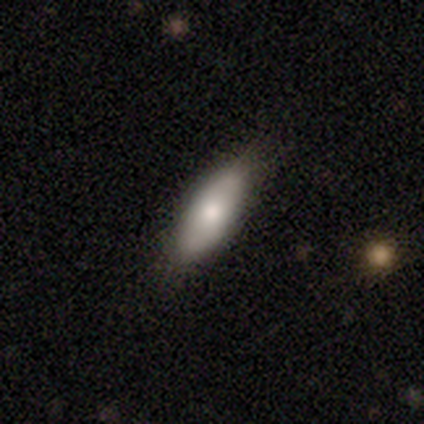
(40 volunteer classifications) smooth 70%, featured or disk 30%, star or artifact 0%. Down the decision tree: how rounded — in between (79%); merging — none (80%).